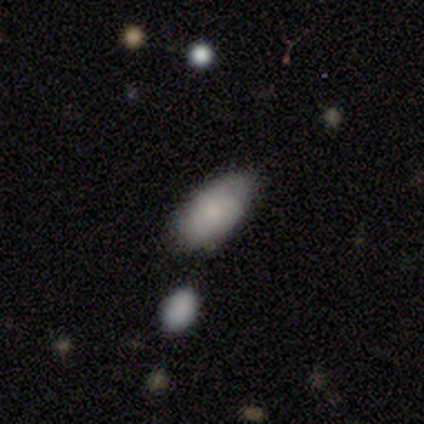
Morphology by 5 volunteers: A smooth galaxy with no disk features (60%) that is in between round and cigar-shaped (100%).

Vote fractions:
- Smooth or featured? smooth: 60% / featured or disk: 40% / star or artifact: 0%
- How rounded? in between: 100% / round: 0% / cigar-shaped: 0%
- Merging? none: 80% / minor disturbance: 20% / major disturbance: 0% / merger: 0%